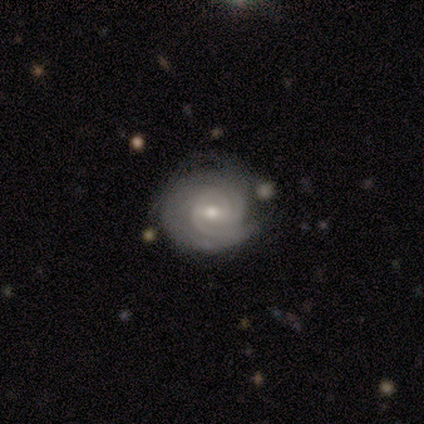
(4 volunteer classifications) featured or disk 100%, smooth 0%, star or artifact 0%. Down the decision tree: edge-on disk — no (100%); bar — weak (50%); spiral arms — yes (100%); spiral arm count — 3 (50%); spiral winding — tight (100%); bulge size — moderate (50%, tied with small); merging — none (50%).